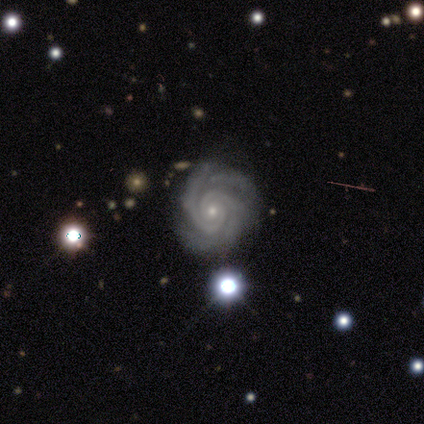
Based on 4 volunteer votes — smooth_or_featured: featured or disk (p=1.00)
disk_edge_on: no (p=1.00)
bar: no (p=0.75) [alt: strong p=0.25]
has_spiral_arms: yes (p=1.00)
spiral_winding: tight (p=0.75) [alt: medium p=0.25]
spiral_arm_count: 2 (p=0.50) [alt: more than 4 p=0.25]
bulge_size: small (p=1.00)
merging: none (p=1.00)